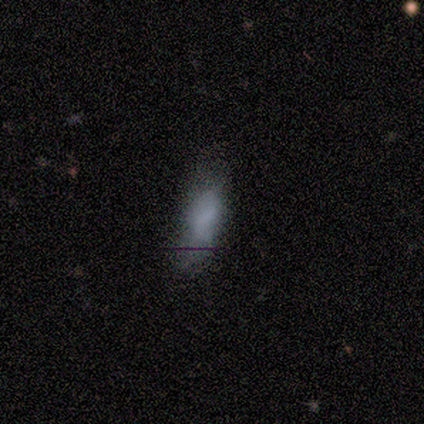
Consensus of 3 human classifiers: smooth_or_featured: smooth (p=0.67) [alt: featured or disk p=0.33]
how_rounded: in between (p=1.00)
merging: none (p=0.67) [alt: minor disturbance p=0.33]